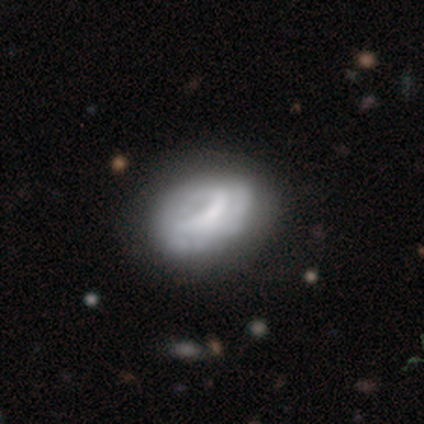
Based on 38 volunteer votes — Smooth or featured? featured or disk (58%)
Edge-on disk? no (95%)
Bar? no (67%)
Spiral arms? no (52%)
Bulge size? none (62%)
Merging? none (51%)